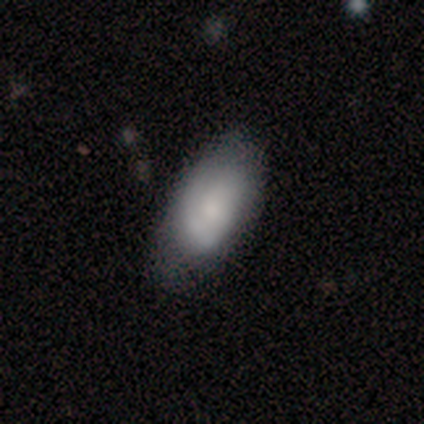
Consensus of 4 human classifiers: Morphology: type=smooth (50%, tied with featured or disk); roundness=in between (100%); merging=none (100%).